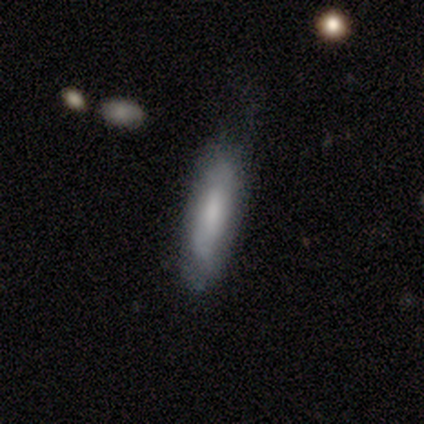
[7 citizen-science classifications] Smooth or featured? 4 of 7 (57%) said smooth. How rounded? 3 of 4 (75%) said in between. Merging? 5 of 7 (71%) said none.